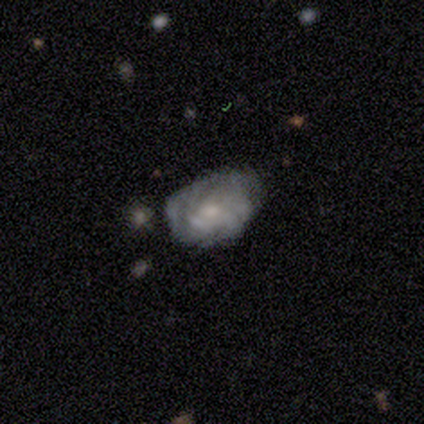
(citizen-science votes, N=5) Morphology: type=featured or disk (60%); edge-on=no (100%); bar=no (67%); spiral arms=yes (67%); winding=tight (50%, tied with medium); arm count=can't tell (100%); bulge=moderate (67%); merging=minor disturbance (50%).